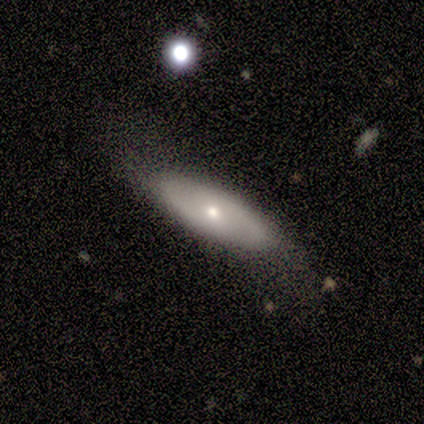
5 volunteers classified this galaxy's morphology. This appears to be a featured or disk galaxy (80%) with no bar (100%), 2 (50%, tied with can't tell) medium (50%, tied with loose) spiral arms (50%, tied with no) and a small central bulge (75%). Merging: none (100%).